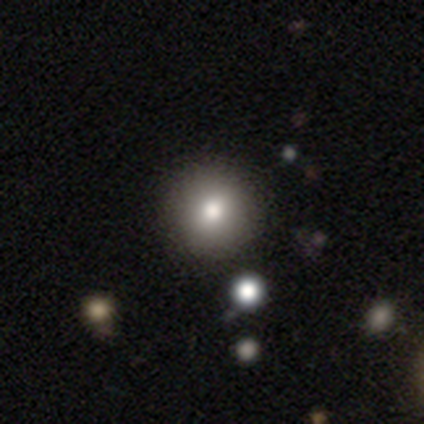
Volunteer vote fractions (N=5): A smooth galaxy with no disk features (80%) that is round (75%). Merging: none (80%).